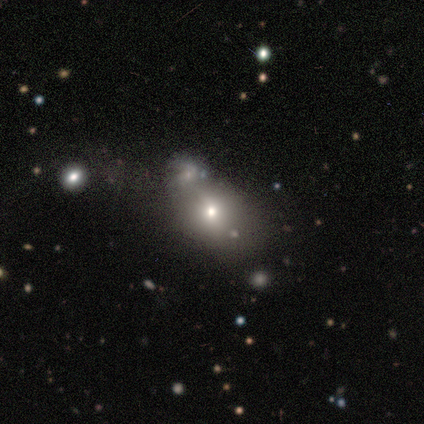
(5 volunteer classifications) Smooth or featured: smooth — 40% (tied with star or artifact — 40%)
How rounded: round — 50% (tied with in between — 50%)
Merging: none — 100%